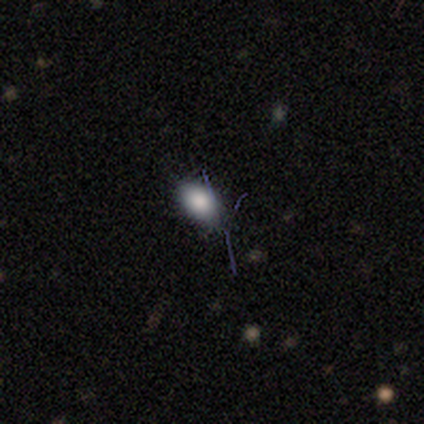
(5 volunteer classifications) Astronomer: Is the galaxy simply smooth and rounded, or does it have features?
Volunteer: smooth — 100%.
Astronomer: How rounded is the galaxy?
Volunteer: in between — 100%.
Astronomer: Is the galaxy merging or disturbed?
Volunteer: none — 60% (runner-up: minor disturbance, 40%).